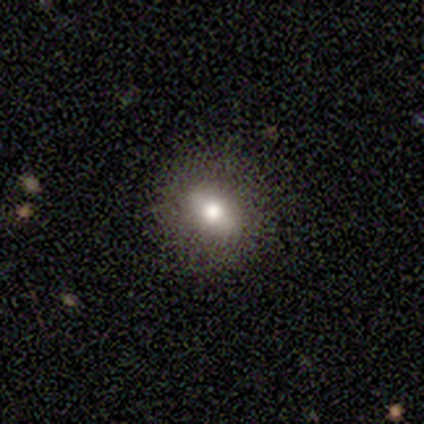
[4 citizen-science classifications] A featured or disk galaxy (50%) with a weak bar (100%), no spiral arms (100%) and a moderate central bulge (100%).

Vote fractions:
- Smooth or featured? featured or disk: 50% / smooth: 25% / star or artifact: 25%
- Edge-on disk? no: 100% / yes: 0%
- Bar? weak: 100% / strong: 0% / no: 0%
- Spiral arms? no: 100% / yes: 0%
- Bulge size? moderate: 100% / dominant: 0% / large: 0% / small: 0% / none: 0%
- Merging? none: 100% / minor disturbance: 0% / major disturbance: 0% / merger: 0%